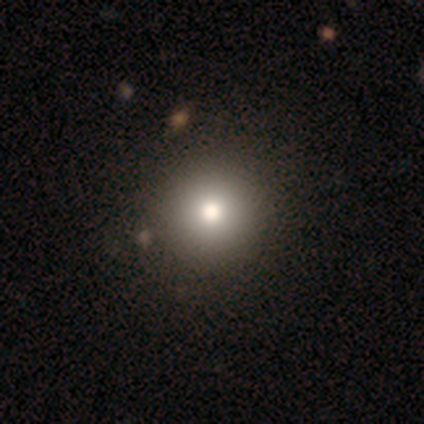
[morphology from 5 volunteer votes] This appears to be a smooth galaxy with no disk features (80%) that is round (100%). Merging: none (80%).